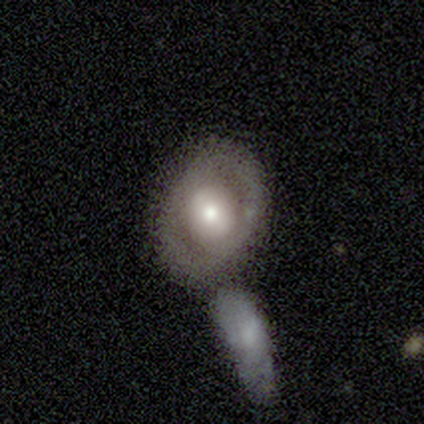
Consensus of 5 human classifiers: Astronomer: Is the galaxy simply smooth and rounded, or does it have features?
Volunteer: smooth — 80%.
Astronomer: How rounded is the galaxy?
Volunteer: round — 50%, tied with in between at 50%.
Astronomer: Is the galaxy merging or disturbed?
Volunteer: none — 80%.